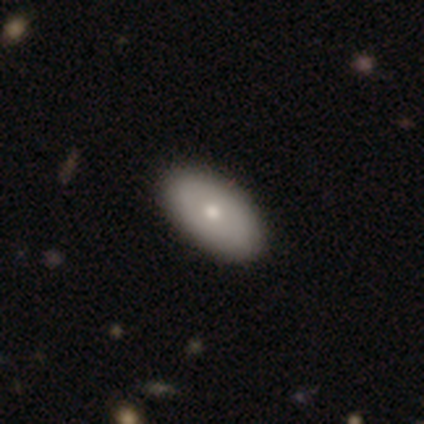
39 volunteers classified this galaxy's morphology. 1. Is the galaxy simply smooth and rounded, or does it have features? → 72% smooth, 23% featured or disk, 5% star or artifact.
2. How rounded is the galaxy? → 96% in between, 4% cigar-shaped, 0% round.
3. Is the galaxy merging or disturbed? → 51% none, 5% minor disturbance, 0% major disturbance, 0% merger.